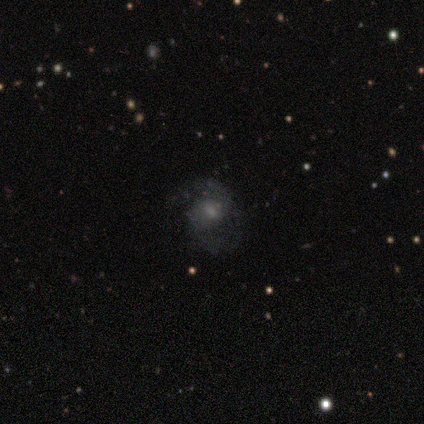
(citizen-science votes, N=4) This appears to be a featured or disk galaxy (75%) with no bar (67%), 2 (100%) medium (50%, tied with loose) spiral arms (67%) and a small central bulge (67%). Merging: none (100%).